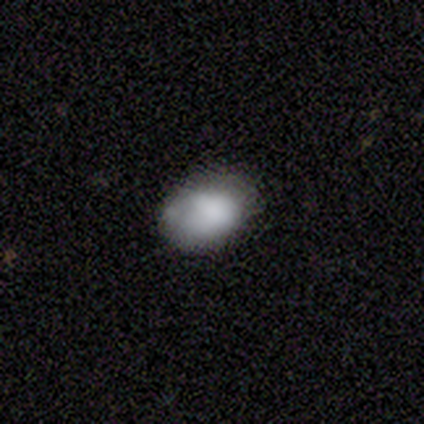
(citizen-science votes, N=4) A smooth galaxy with no disk features (75%) that is in between round and cigar-shaped (100%).

Vote fractions:
- Smooth or featured? smooth: 75% / featured or disk: 25% / star or artifact: 0%
- How rounded? in between: 100% / round: 0% / cigar-shaped: 0%
- Merging? none: 50% (tied) / minor disturbance: 50% (tied) / major disturbance: 0% / merger: 0%